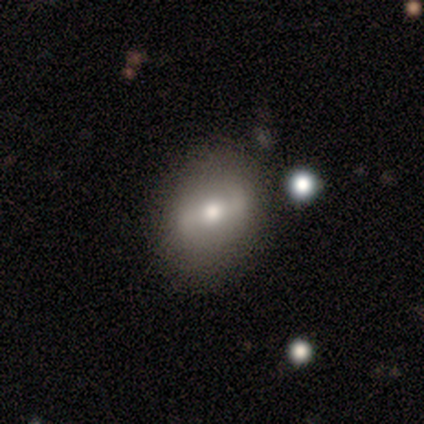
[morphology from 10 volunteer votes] This is possibly a smooth galaxy (50%, tied with featured or disk). How rounded: likely in between (60%). Merging: likely none (70%).